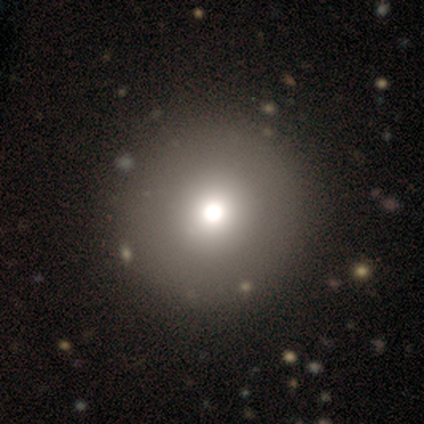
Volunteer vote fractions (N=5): Overall: smooth (60%; featured or disk 20%). How rounded: round (100%). Merging: none (100%).